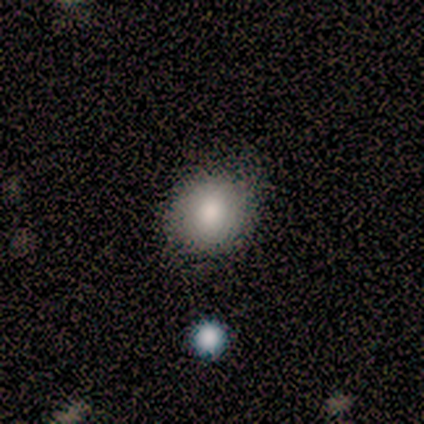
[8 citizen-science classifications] Overall: smooth (88%). How rounded: round (86%). Merging: none (86%).